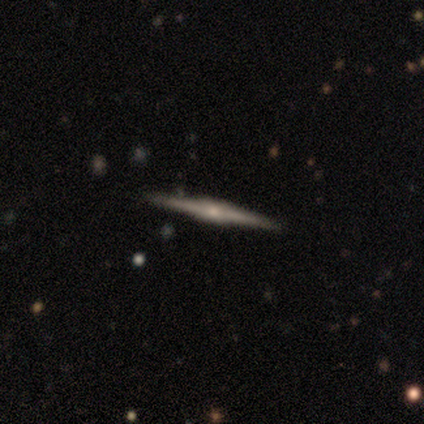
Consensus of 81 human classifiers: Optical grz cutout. It shows a featured or disk galaxy (81%) viewed edge-on (100%) with a rounded central bulge (61%). Merging: none (90%).